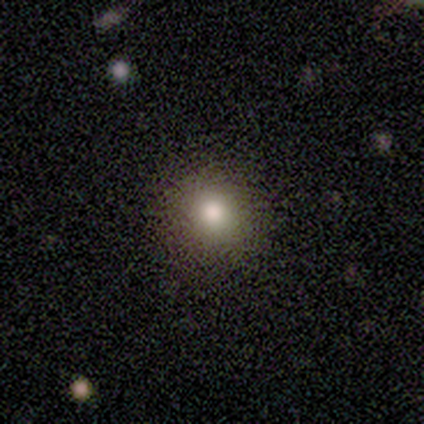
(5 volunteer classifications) Morphology: type=smooth (80%); roundness=round (100%); merging=none (60%).